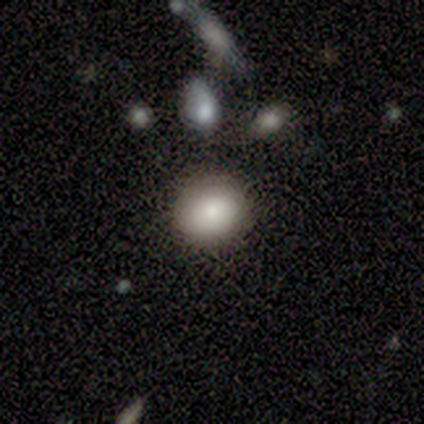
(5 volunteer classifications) Smooth or featured? smooth (80%)
How rounded? round (100%)
Merging? none (100%)